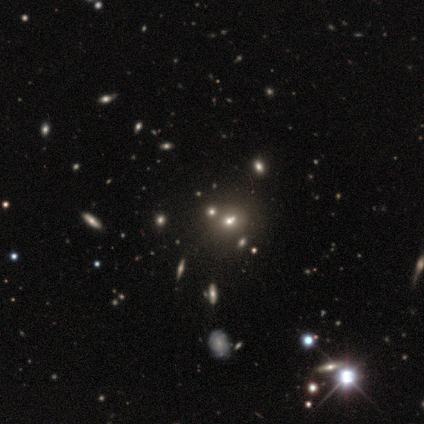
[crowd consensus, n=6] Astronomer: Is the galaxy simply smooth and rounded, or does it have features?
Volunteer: smooth — 67%.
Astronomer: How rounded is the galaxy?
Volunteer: round — 75%.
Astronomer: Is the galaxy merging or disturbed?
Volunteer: none — 80%.